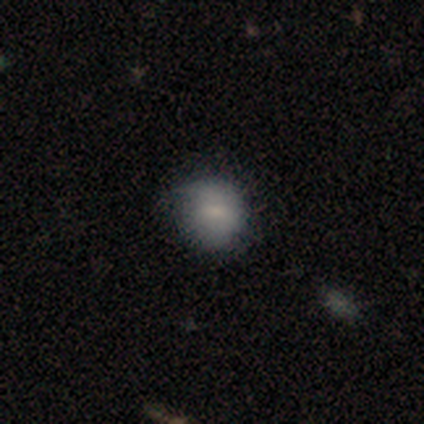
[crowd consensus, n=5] Smooth or featured: smooth — 60% (featured or disk — 20%)
How rounded: round — 100%
Merging: none — 75% (minor disturbance — 25%)